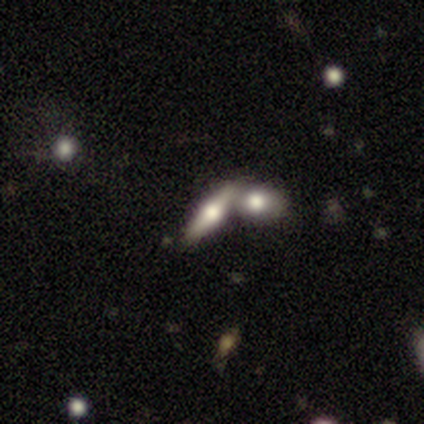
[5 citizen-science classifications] Overall: featured or disk (80%). Edge-on disk: yes (75%). Edge-on bulge: rounded (100%). Merging: merger (80%).